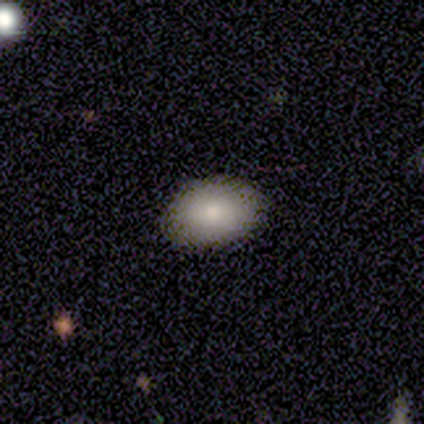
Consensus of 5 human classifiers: Morphology: type=smooth (100%); roundness=in between (100%); merging=none (100%).